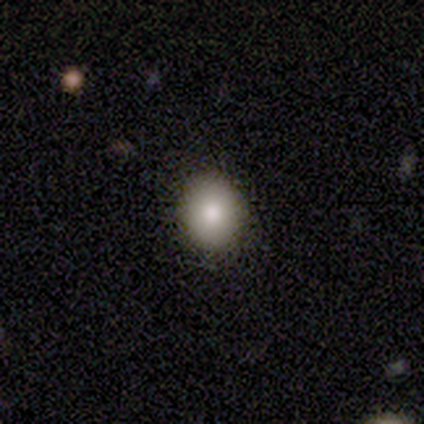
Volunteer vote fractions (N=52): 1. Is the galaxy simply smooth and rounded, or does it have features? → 87% smooth, 8% featured or disk, 6% star or artifact.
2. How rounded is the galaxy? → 71% round, 29% in between, 0% cigar-shaped.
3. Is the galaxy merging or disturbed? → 92% none, 8% minor disturbance, 0% major disturbance, 0% merger.